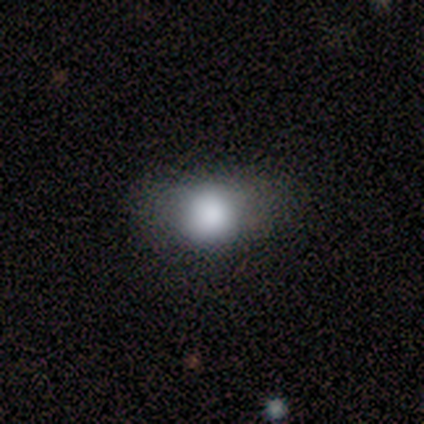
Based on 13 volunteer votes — Smooth or featured: smooth — 77% (featured or disk — 23%)
How rounded: round — 80% (in between — 20%)
Merging: none — 46% (tied with minor disturbance — 46%)